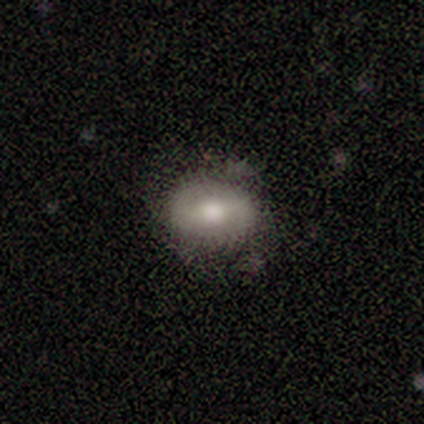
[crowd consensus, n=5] featured or disk 60%, smooth 40%, star or artifact 0%. Down the decision tree: edge-on disk — no (100%); bar — no (67%); spiral arms — yes (100%); spiral arm count — 2 (67%); spiral winding — medium (67%); bulge size — moderate (67%); merging — none (80%).